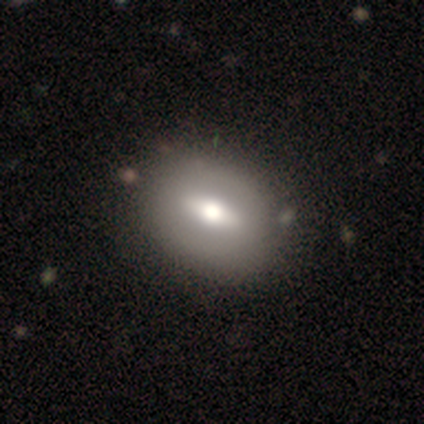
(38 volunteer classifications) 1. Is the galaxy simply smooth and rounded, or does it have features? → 55% featured or disk, 37% smooth, 8% star or artifact.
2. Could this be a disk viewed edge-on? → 81% no, 19% yes.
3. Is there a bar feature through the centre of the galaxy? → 65% weak, 29% strong, 6% no.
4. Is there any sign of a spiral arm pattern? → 82% no, 18% yes.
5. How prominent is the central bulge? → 59% moderate, 35% large, 6% dominant, 0% small, 0% none.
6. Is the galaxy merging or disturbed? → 63% none, 9% minor disturbance, 3% merger, 0% major disturbance.